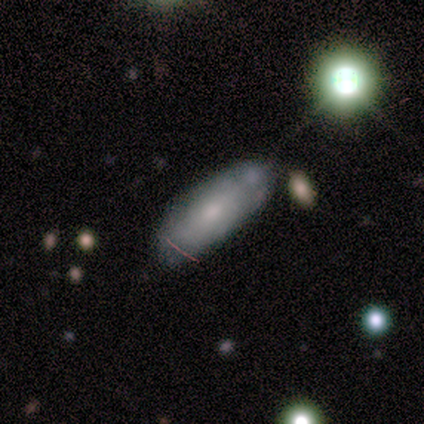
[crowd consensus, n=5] Smooth or featured?
  - featured or disk: 100% *
  - smooth: 0%
  - star or artifact: 0%
Edge-on disk?
  - no: 100% *
  - yes: 0%
Bar?
  - strong: 40% * (tied)
  - no: 40% * (tied)
  - weak: 20%
Spiral arms?
  - no: 60% *
  - yes: 40%
Bulge size?
  - moderate: 40% *
  - dominant: 20%
  - large: 20%
  - none: 20%
  - small: 0%
Merging?
  - none: 60% *
  - minor disturbance: 20%
  - major disturbance: 20%
  - merger: 0%